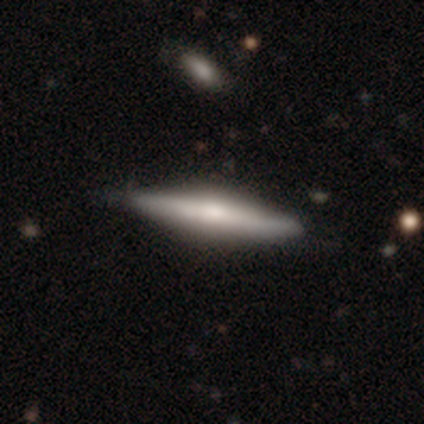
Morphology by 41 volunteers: featured or disk 71%, smooth 24%, star or artifact 5%. Down the decision tree: edge-on disk — yes (97%); edge-on bulge — rounded (64%); merging — none (85%).